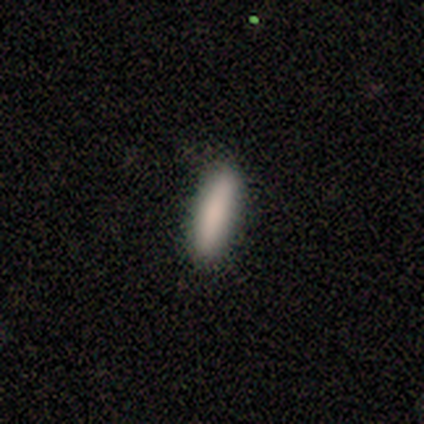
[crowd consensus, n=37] This appears to be a smooth galaxy with no disk features (84%) that is cigar-shaped (71%). Merging: none (94%).